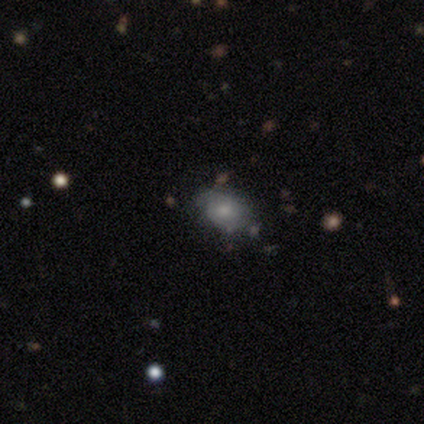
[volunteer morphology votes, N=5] Smooth or featured: featured or disk — 60% (smooth — 40%)
Edge-on disk: no — 100%
Bar: weak — 67% (no — 33%)
Spiral arms: yes — 67% (no — 33%)
Spiral winding: tight — 50% (tied with loose — 50%)
Spiral arm count: 2 — 100%
Bulge size: small — 67% (moderate — 33%)
Merging: none — 80% (minor disturbance — 20%)